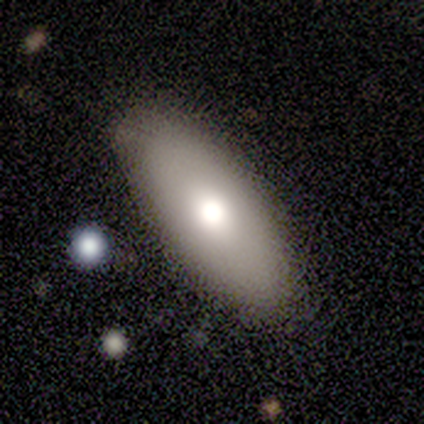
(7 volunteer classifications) A smooth galaxy with no disk features (71%) that is in between round and cigar-shaped (100%).

Vote fractions:
- Smooth or featured? smooth: 71% / featured or disk: 29% / star or artifact: 0%
- How rounded? in between: 100% / round: 0% / cigar-shaped: 0%
- Merging? none: 86% / minor disturbance: 14% / major disturbance: 0% / merger: 0%